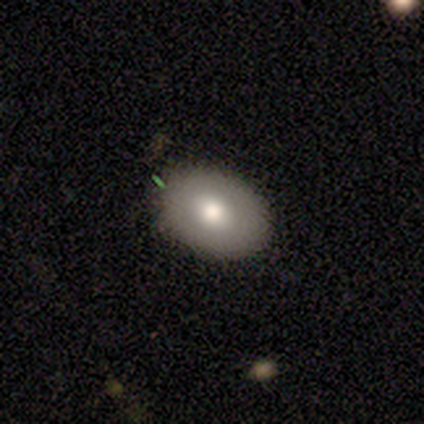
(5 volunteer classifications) Smooth or featured? smooth (60%)
How rounded? in between (100%)
Merging? none (100%)